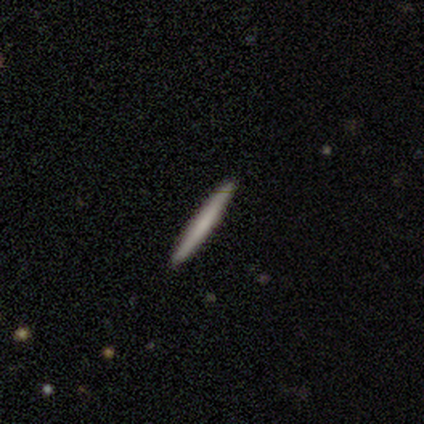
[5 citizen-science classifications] A smooth galaxy with no disk features (80%) that is cigar-shaped (100%).

Vote fractions:
- Smooth or featured? smooth: 80% / featured or disk: 20% / star or artifact: 0%
- How rounded? cigar-shaped: 100% / round: 0% / in between: 0%
- Merging? none: 100% / minor disturbance: 0% / major disturbance: 0% / merger: 0%